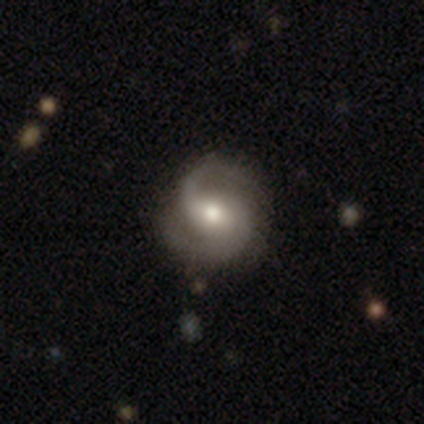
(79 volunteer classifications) Morphology: type=featured or disk (86%); edge-on=no (100%); bar=no (54%); spiral arms=yes (96%); winding=medium (60%); arm count=2 (92%); bulge=moderate (63%); merging=none (33%).